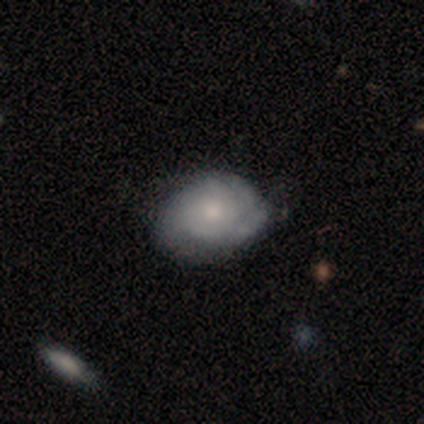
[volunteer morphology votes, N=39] A featured or disk galaxy (67%) with no bar (85%), tight (50%) spiral arms (92%) and a small central bulge (46%).

Vote fractions:
- Smooth or featured? featured or disk: 67% / smooth: 31% / star or artifact: 3%
- Edge-on disk? no: 100% / yes: 0%
- Bar? no: 85% / weak: 15% / strong: 0%
- Spiral arms? yes: 92% / no: 8%
- Spiral winding? tight: 50% / loose: 29% / medium: 21%
- Spiral arm count? can't tell: 29% / 3: 25% / 2: 21% / 4: 17% / 1: 8% / more than 4: 0%
- Bulge size? small: 46% / moderate: 42% / large: 8% / none: 4% / dominant: 0%
- Merging? none: 50% / minor disturbance: 26% / major disturbance: 3% / merger: 0%